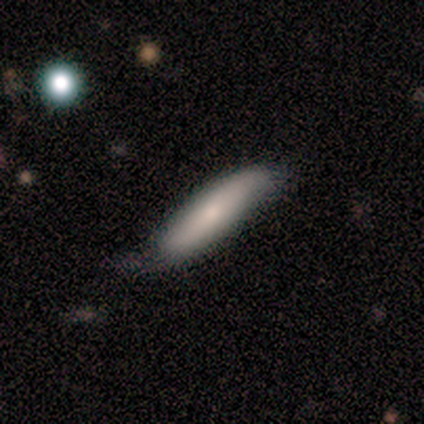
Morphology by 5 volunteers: Smooth or featured? 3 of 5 (60%) said featured or disk. Edge-on disk? 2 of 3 (67%) said yes. Edge-on bulge? 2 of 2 (100%) said none. Merging? 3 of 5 (60%) said minor disturbance.